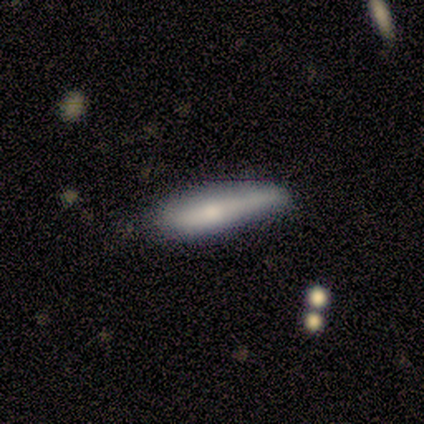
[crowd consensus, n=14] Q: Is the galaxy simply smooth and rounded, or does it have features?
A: smooth — 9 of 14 (64%).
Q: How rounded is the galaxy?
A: cigar-shaped — 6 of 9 (67%).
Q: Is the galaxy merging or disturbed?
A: none — 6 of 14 (43%, tied with minor disturbance).